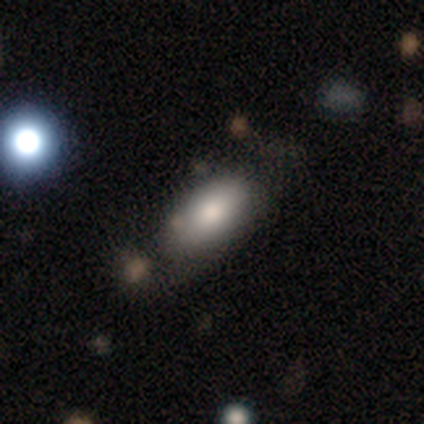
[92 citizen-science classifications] Volunteers were most divided on "merging": none: 58%, minor disturbance: 27%, major disturbance: 10%, merger: 6%. More confident: how rounded — in between (90%); smooth or featured — smooth (77%).